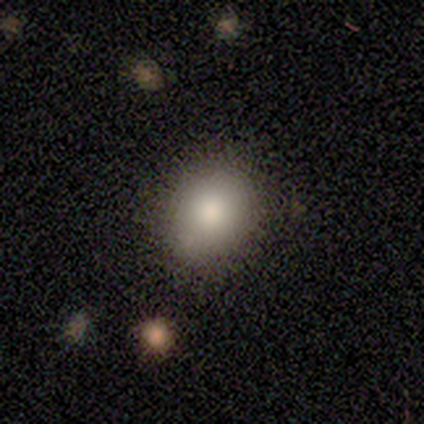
A smooth galaxy with no disk features (60%) that is round (67%). Merging: none (100%).